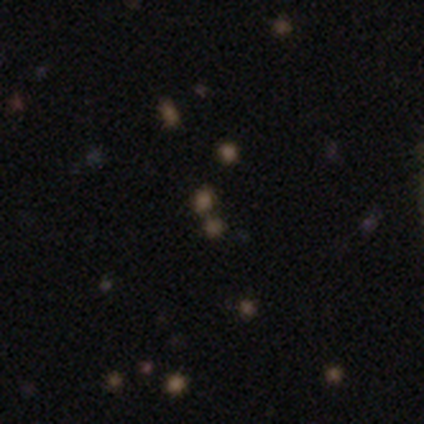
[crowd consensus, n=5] A smooth galaxy with no disk features (60%) that is round (100%). Merging: none (33%, tied with minor disturbance and merger).